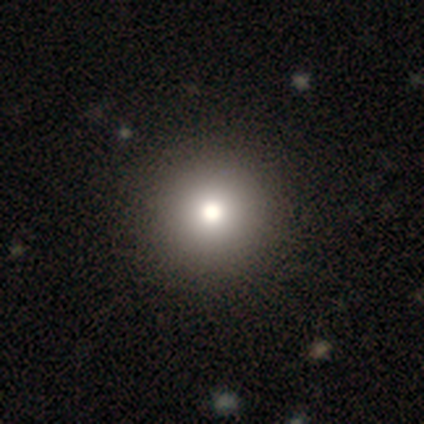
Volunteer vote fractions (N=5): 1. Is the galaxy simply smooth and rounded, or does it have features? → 100% smooth, 0% featured or disk, 0% star or artifact.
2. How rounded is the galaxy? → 80% round, 20% in between, 0% cigar-shaped.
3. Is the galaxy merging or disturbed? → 60% none, 40% minor disturbance, 0% major disturbance, 0% merger.